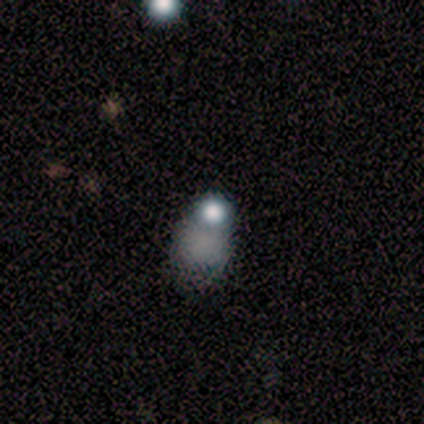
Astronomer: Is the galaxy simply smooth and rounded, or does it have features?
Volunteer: featured or disk — 40%, tied with star or artifact at 40%.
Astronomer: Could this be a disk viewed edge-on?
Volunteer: no — 100%.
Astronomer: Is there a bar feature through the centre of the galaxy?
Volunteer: no — 100%.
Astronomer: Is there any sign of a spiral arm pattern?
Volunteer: no — 100%.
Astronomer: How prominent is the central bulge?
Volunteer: large — 50%, tied with none at 50%.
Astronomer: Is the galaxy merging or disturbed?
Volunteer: minor disturbance — 33%, tied with major disturbance and merger at 33%.